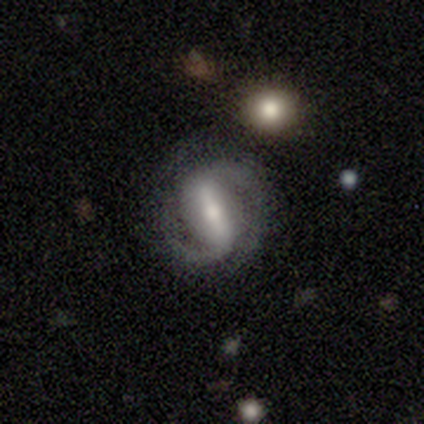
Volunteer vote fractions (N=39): smooth_or_featured: featured or disk (p=0.90) [alt: smooth p=0.05]
disk_edge_on: no (p=0.97) [alt: yes p=0.03]
bar: strong (p=0.79) [alt: weak p=0.12]
has_spiral_arms: yes (p=1.00)
spiral_winding: medium (p=0.53) [alt: tight p=0.35]
spiral_arm_count: 2 (p=0.88) [alt: 1 p=0.06]
bulge_size: moderate (p=0.53) [alt: small p=0.29]
merging: none (p=0.70) [alt: minor disturbance p=0.22]